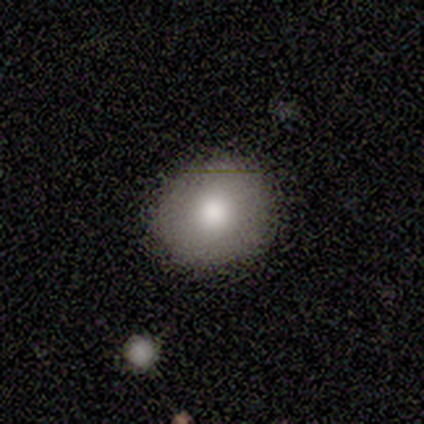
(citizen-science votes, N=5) A smooth galaxy with no disk features (80%) that is round (75%). Merging: none (100%).